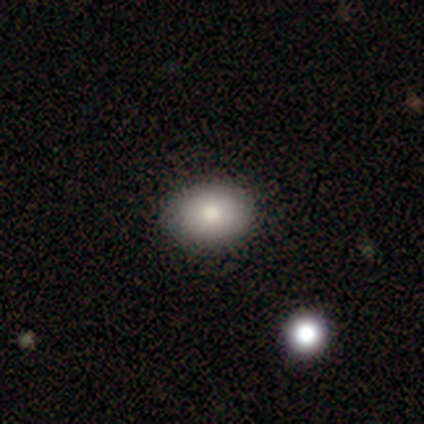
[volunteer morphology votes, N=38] Smooth or featured?
  - smooth: 89% *
  - featured or disk: 8%
  - star or artifact: 3%
How rounded?
  - in between: 76% *
  - round: 24%
  - cigar-shaped: 0%
Merging?
  - none: 84% *
  - minor disturbance: 16%
  - major disturbance: 0%
  - merger: 0%